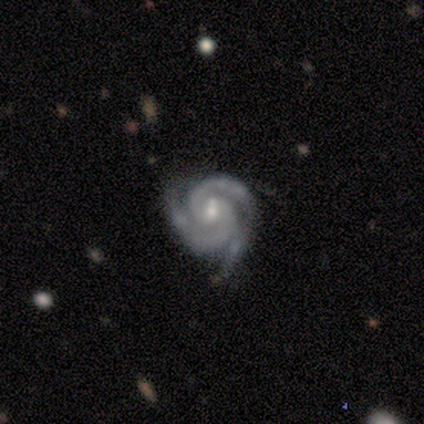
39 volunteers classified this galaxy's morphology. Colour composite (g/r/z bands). It shows a featured or disk galaxy (97%) with a weak bar (57%), 3 (70%) tight (76%) spiral arms (100%) and a moderate central bulge (54%). Merging: none (63%).